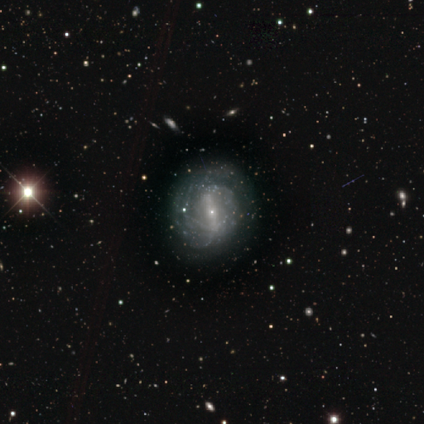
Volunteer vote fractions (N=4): This appears to be a featured or disk galaxy (75%) with a strong bar (100%), no spiral arms (67%) and a small central bulge (100%). Merging: none (50%, tied with minor disturbance).